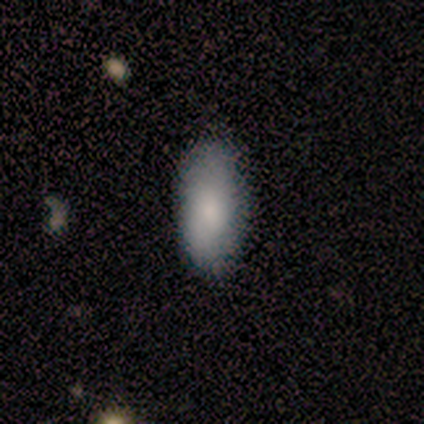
This is likely a smooth galaxy (70%). How rounded: clearly in between (86%). Merging: clearly none (83%).